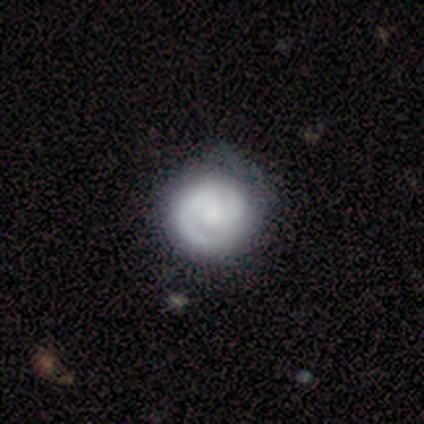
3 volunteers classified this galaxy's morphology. Smooth or featured?
  - featured or disk: 100% *
  - smooth: 0%
  - star or artifact: 0%
Edge-on disk?
  - no: 100% *
  - yes: 0%
Bar?
  - no: 67% *
  - weak: 33%
  - strong: 0%
Spiral arms?
  - yes: 67% *
  - no: 33%
Spiral winding?
  - tight: 100% *
  - medium: 0%
  - loose: 0%
Spiral arm count?
  - 2: 100% *
  - 1: 0%
  - 3: 0%
  - 4: 0%
  - more than 4: 0%
  - can't tell: 0%
Bulge size?
  - small: 67% *
  - none: 33%
  - dominant: 0%
  - large: 0%
  - moderate: 0%
Merging?
  - none: 67% *
  - minor disturbance: 33%
  - major disturbance: 0%
  - merger: 0%